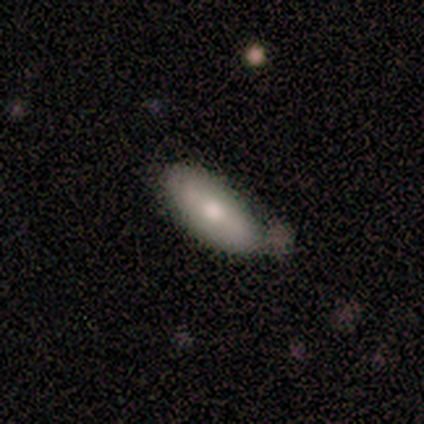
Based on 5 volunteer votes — A smooth galaxy with no disk features (80%) that is in between round and cigar-shaped (100%). Merging: minor disturbance (60%).